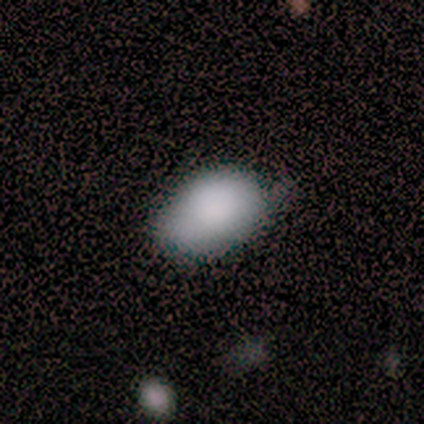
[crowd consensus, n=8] This appears to be a smooth galaxy with no disk features (100%) that is in between round and cigar-shaped (100%). Merging: none (62%).